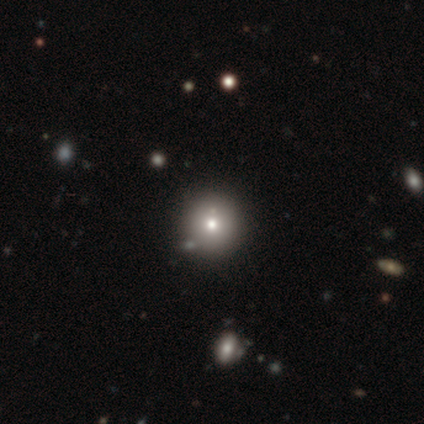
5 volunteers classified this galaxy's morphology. A smooth galaxy with no disk features (100%) that is round (100%). Merging: none (80%).